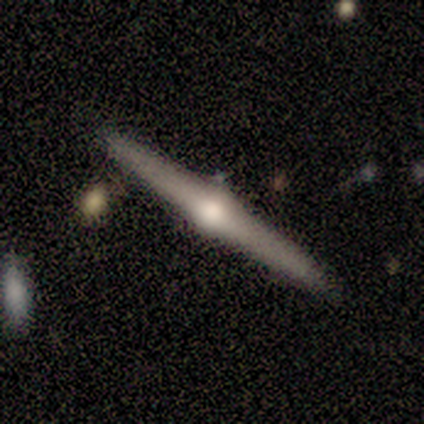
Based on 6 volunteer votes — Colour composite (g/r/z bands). It shows a featured or disk galaxy (67%) viewed edge-on (100%) with a rounded central bulge (75%). Merging: none (100%).